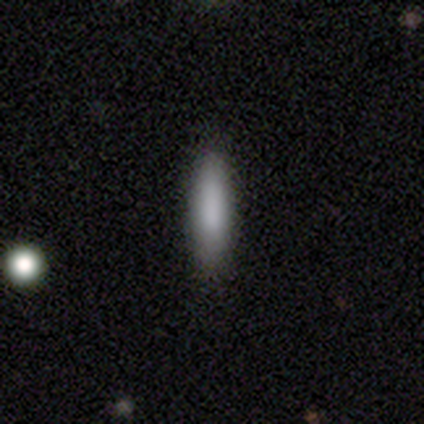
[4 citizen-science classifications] Overall: smooth (100%). How rounded: in between (50%, tied with cigar-shaped). Merging: none (100%).